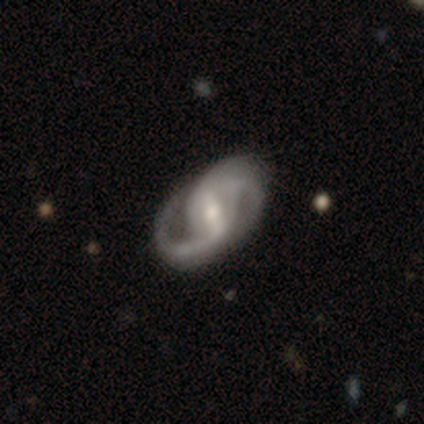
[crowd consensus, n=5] Overall: featured or disk (80%). Edge-on disk: no (100%). Bar: strong (50%, tied with weak). Spiral arms: yes (100%). Spiral arm count: 2 (75%). Spiral winding: medium (75%). Bulge size: moderate (75%). Merging: none (100%).